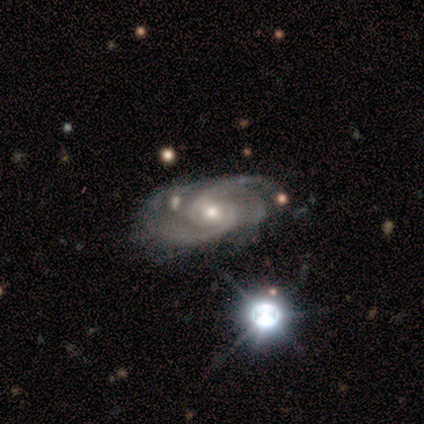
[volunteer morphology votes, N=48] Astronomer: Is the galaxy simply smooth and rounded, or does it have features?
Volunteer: featured or disk — 94%.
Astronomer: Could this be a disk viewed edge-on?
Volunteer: no — 96%.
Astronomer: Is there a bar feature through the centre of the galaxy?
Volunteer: no — 49% (runner-up: weak, 44%).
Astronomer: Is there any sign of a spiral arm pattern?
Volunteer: yes — 98%.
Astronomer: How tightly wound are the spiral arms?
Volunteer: medium — 50% (runner-up: tight, 40%).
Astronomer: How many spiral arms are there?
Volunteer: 2 — 62%.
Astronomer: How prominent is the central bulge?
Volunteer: small — 53% (runner-up: moderate, 42%).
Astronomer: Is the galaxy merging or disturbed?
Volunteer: none — 50% (runner-up: minor disturbance, 28%).